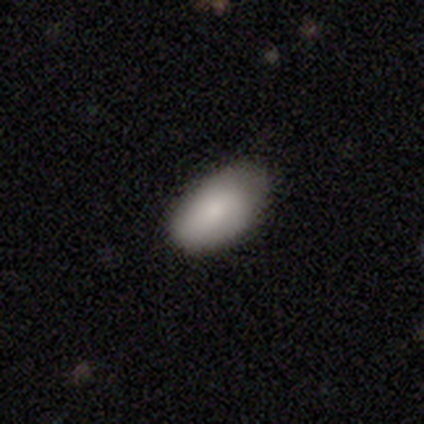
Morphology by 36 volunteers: This is clearly a smooth galaxy (89%). How rounded: clearly in between (94%). Merging: clearly none (82%).